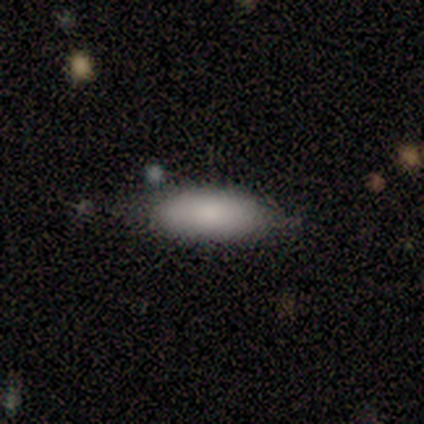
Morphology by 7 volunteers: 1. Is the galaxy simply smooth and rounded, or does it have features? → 100% smooth, 0% featured or disk, 0% star or artifact.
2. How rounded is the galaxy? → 71% in between, 29% cigar-shaped, 0% round.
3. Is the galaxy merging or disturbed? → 57% none, 43% minor disturbance, 0% major disturbance, 0% merger.